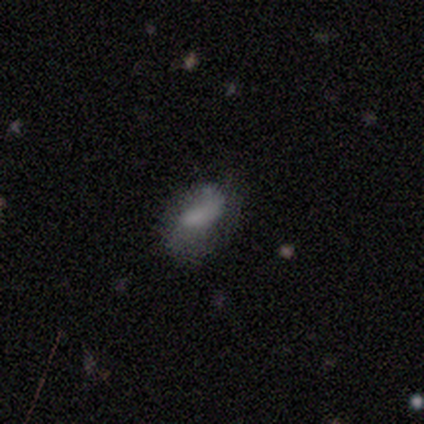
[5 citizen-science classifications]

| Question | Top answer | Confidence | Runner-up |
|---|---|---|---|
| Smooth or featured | smooth | 40% | tied: featured or disk (40%) |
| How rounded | in between | 100% | — |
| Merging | minor disturbance | 50% | none (25%) |